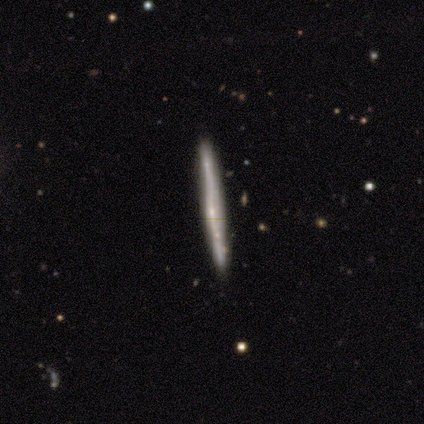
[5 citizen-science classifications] smooth-or-featured: featured or disk: 60% | smooth: 40% | star or artifact: 0%
  disk-edge-on: yes: 100% | no: 0%
    edge-on-bulge: none: 67% | rounded: 33% | boxy: 0%
  merging: none: 80% | minor disturbance: 20% | major disturbance: 0% | merger: 0%